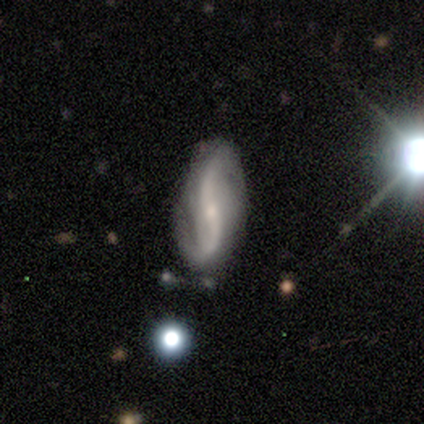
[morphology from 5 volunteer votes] A featured or disk galaxy (80%) with a strong bar (50%, tied with no), 2 (100%) loose (75%) spiral arms (100%) and a small central bulge (100%).

Vote fractions:
- Smooth or featured? featured or disk: 80% / smooth: 20% / star or artifact: 0%
- Edge-on disk? no: 100% / yes: 0%
- Bar? strong: 50% (tied) / no: 50% (tied) / weak: 0%
- Spiral arms? yes: 100% / no: 0%
- Spiral winding? loose: 75% / medium: 25% / tight: 0%
- Spiral arm count? 2: 100% / 1: 0% / 3: 0% / 4: 0% / more than 4: 0% / can't tell: 0%
- Bulge size? small: 100% / dominant: 0% / large: 0% / moderate: 0% / none: 0%
- Merging? none: 80% / minor disturbance: 20% / major disturbance: 0% / merger: 0%